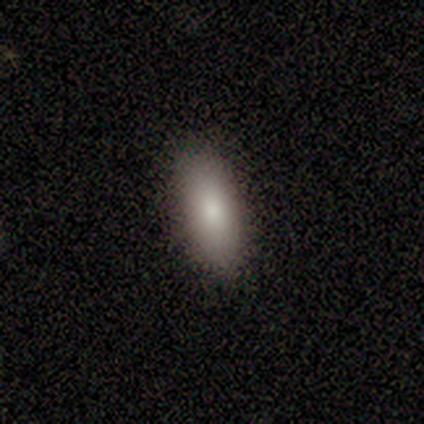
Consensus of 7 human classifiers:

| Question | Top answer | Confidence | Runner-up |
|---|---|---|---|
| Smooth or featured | smooth | 100% | — |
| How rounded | in between | 86% | cigar-shaped (14%) |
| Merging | none | 71% | minor disturbance (29%) |